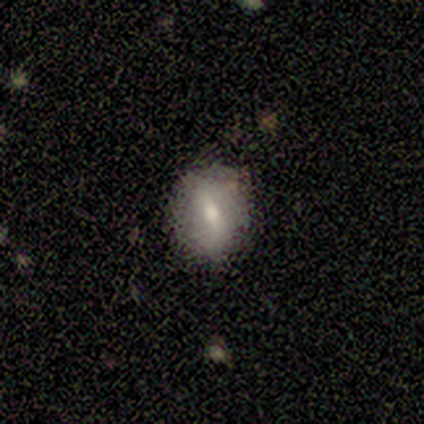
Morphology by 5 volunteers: Smooth or featured?
  - smooth: 60% *
  - featured or disk: 40%
  - star or artifact: 0%
How rounded?
  - round: 67% *
  - in between: 33%
  - cigar-shaped: 0%
Merging?
  - none: 100% *
  - minor disturbance: 0%
  - major disturbance: 0%
  - merger: 0%